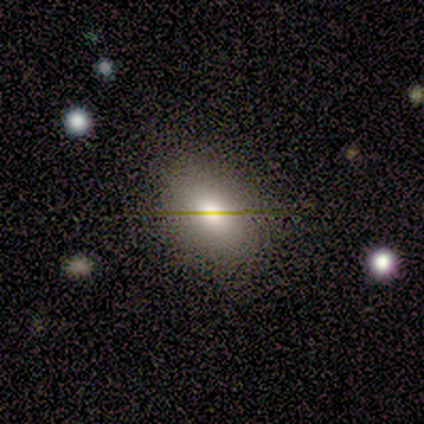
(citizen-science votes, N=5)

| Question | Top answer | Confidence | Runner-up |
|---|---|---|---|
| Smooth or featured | smooth | 40% | tied: featured or disk (40%) |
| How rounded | in between | 100% | — |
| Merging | none | 75% | major disturbance (25%) |